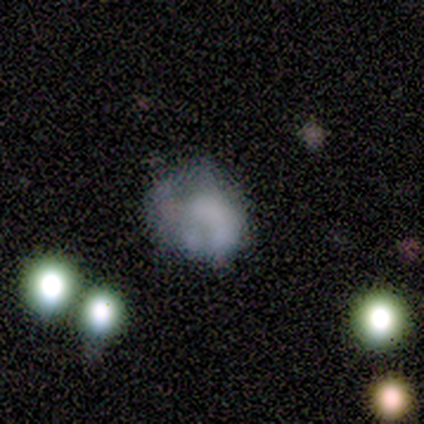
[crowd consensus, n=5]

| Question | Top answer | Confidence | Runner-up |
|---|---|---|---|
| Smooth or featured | featured or disk | 40% | tied: star or artifact (40%) |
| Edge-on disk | no | 100% | — |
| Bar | no | 100% | — |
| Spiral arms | no | 100% | — |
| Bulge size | none | 100% | — |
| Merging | none | 33% | tied: minor disturbance (33%), merger (33%) |